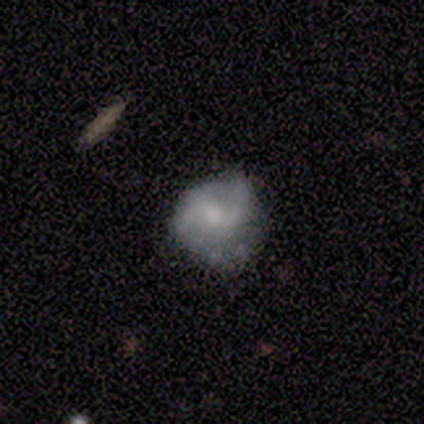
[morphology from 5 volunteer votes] A featured or disk galaxy (100%) with no bar (60%), 2 (100%) loose (50%) spiral arms (80%) and a small central bulge (60%).

Vote fractions:
- Smooth or featured? featured or disk: 100% / smooth: 0% / star or artifact: 0%
- Edge-on disk? no: 100% / yes: 0%
- Bar? no: 60% / weak: 40% / strong: 0%
- Spiral arms? yes: 80% / no: 20%
- Spiral winding? loose: 50% / tight: 25% / medium: 25%
- Spiral arm count? 2: 100% / 1: 0% / 3: 0% / 4: 0% / more than 4: 0% / can't tell: 0%
- Bulge size? small: 60% / moderate: 20% / none: 20% / dominant: 0% / large: 0%
- Merging? none: 60% / major disturbance: 40% / minor disturbance: 0% / merger: 0%